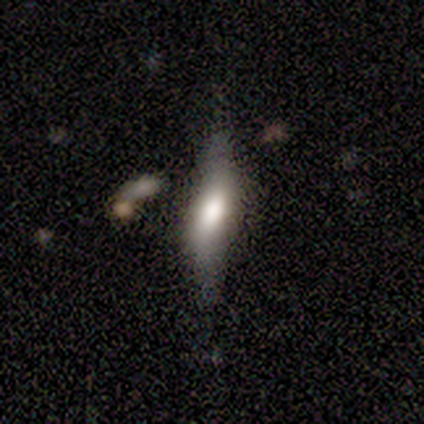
Q: Smooth or featured?
A: smooth (50%); tied with: featured or disk (50%)
Q: How rounded?
A: cigar-shaped (75%); runner-up: in between (25%)
Q: Merging?
A: none (75%); runner-up: minor disturbance (12%)